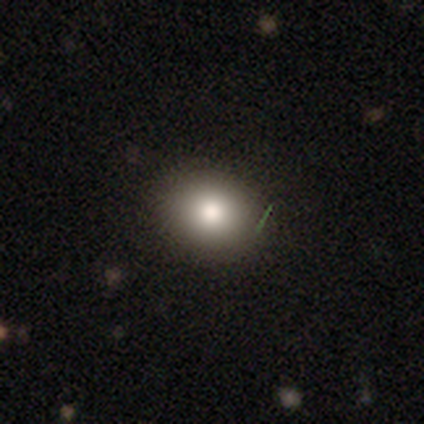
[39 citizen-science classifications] This is likely a smooth galaxy (72%). How rounded: possibly round (54%). Merging: clearly none (94%).